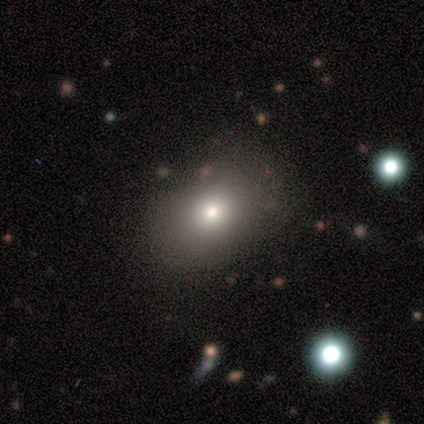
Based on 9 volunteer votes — smooth_or_featured: smooth (p=0.44) [alt: featured or disk p=0.33]
how_rounded: in between (p=0.75) [alt: round p=0.25]
merging: none (p=0.71) [alt: minor disturbance p=0.14]